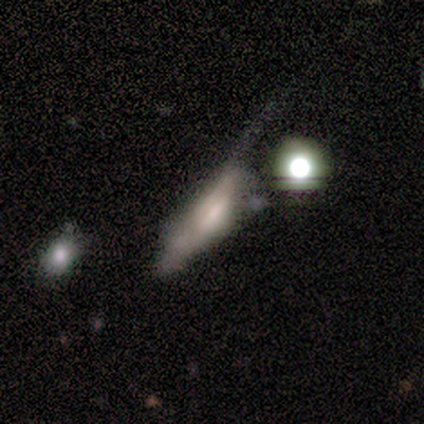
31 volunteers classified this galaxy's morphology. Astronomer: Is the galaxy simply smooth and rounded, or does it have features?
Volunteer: featured or disk — 42% (runner-up: smooth, 39%).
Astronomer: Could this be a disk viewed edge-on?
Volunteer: no — 62% (runner-up: yes, 38%).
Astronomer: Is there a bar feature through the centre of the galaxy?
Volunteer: weak — 50%, tied with no at 50%.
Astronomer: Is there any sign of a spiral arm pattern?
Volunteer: no — 75%.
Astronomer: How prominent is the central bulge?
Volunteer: large — 25%, tied with moderate and small at 25%.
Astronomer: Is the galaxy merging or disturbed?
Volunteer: major disturbance — 44% (runner-up: none, 20%).